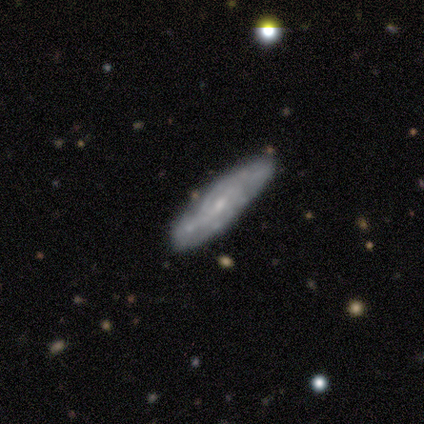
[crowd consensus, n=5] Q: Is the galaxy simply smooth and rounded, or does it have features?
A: featured or disk — 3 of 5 (60%).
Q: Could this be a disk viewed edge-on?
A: no — 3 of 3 (100%).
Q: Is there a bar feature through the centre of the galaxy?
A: no — 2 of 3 (67%).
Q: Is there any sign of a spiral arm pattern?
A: yes — 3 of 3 (100%).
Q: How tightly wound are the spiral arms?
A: tight — 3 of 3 (100%).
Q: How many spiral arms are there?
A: can't tell — 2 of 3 (67%).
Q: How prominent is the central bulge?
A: small — 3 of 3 (100%).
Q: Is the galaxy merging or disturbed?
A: none — 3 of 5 (60%).